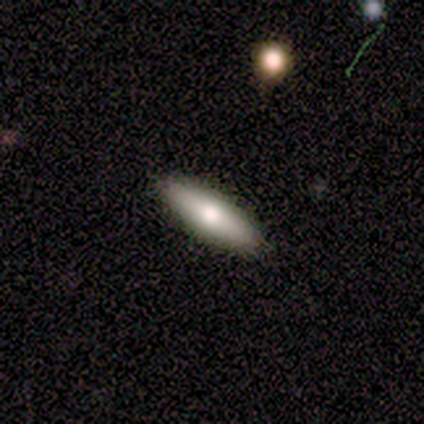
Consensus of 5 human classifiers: This appears to be a smooth galaxy with no disk features (80%) that is in between round and cigar-shaped (50%, tied with cigar-shaped). Merging: none (80%).